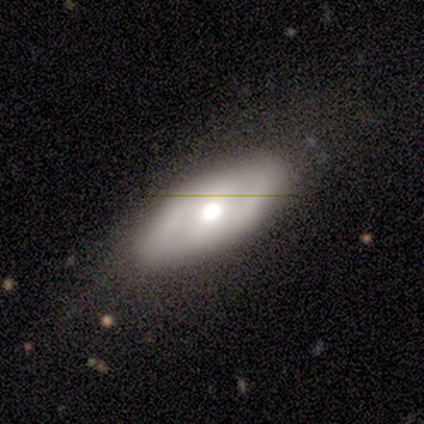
A featured or disk galaxy (60%) with no bar (100%), 2 (50%, tied with can't tell) tight (50%, tied with medium) spiral arms (67%) and a moderate central bulge (100%). Merging: none (40%, tied with minor disturbance).